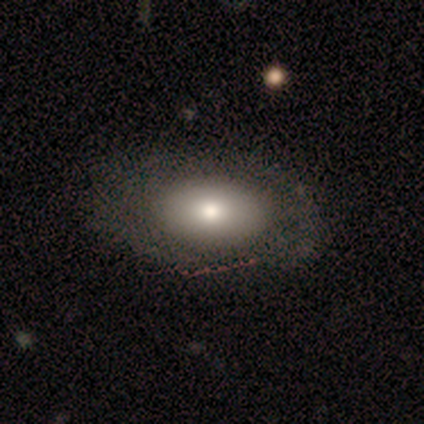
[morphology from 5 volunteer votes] Q: Smooth or featured?
A: smooth (80%); runner-up: featured or disk (20%)
Q: How rounded?
A: in between (100%)
Q: Merging?
A: none (60%); runner-up: minor disturbance (20%)